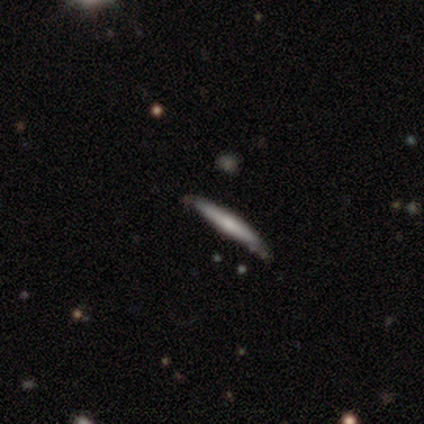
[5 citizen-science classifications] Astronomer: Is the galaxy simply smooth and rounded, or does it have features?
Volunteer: smooth — 60% (runner-up: featured or disk, 40%).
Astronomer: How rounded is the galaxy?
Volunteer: cigar-shaped — 100%.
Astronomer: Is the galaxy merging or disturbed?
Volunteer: none — 100%.